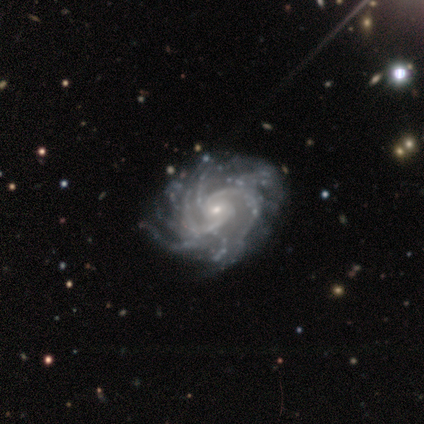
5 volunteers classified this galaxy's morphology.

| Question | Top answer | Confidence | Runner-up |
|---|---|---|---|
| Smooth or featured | featured or disk | 100% | — |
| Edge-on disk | no | 100% | — |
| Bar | no | 80% | weak (20%) |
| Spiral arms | yes | 100% | — |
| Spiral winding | tight | 80% | medium (20%) |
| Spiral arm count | more than 4 | 40% | 2 (20%) |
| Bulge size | small | 60% | moderate (20%) |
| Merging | none | 60% | minor disturbance (40%) |